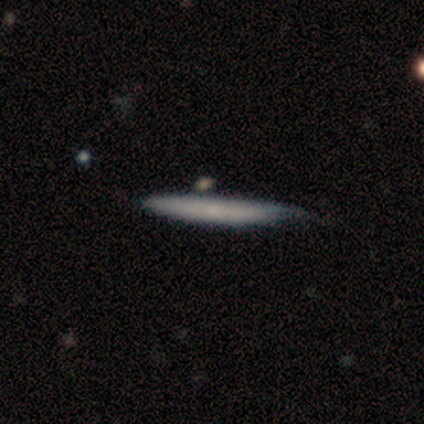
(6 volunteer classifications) Overall: smooth (83%). How rounded: cigar-shaped (100%). Merging: minor disturbance (60%; none 40%).